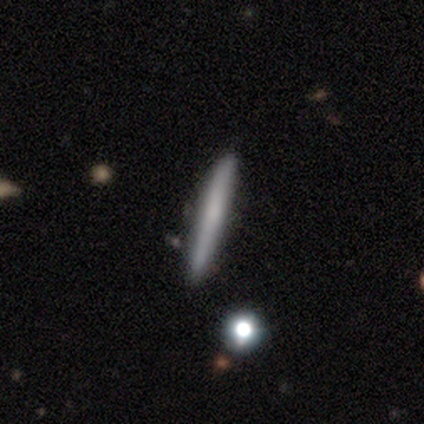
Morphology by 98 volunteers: Volunteers were most divided on "smooth or featured": smooth: 63%, featured or disk: 31%, star or artifact: 6%. More confident: how rounded — cigar-shaped (98%); merging — none (92%).